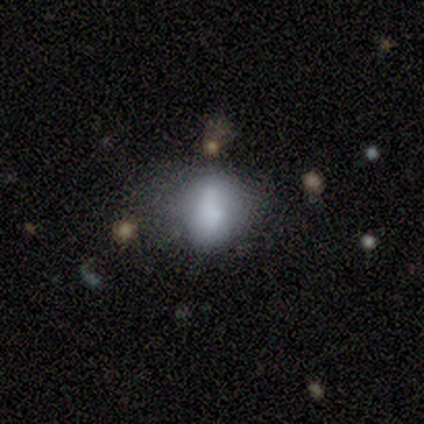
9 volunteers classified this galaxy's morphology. This appears to be a smooth galaxy with no disk features (89%) that is in between round and cigar-shaped (100%). Merging: none (50%).